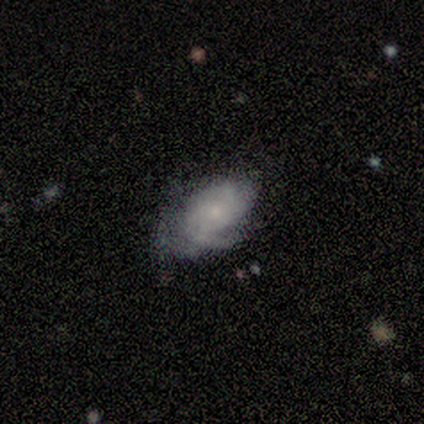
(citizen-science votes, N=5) A smooth galaxy with no disk features (60%) that is in between round and cigar-shaped (100%).

Vote fractions:
- Smooth or featured? smooth: 60% / featured or disk: 40% / star or artifact: 0%
- How rounded? in between: 100% / round: 0% / cigar-shaped: 0%
- Merging? major disturbance: 60% / none: 20% / minor disturbance: 20% / merger: 0%